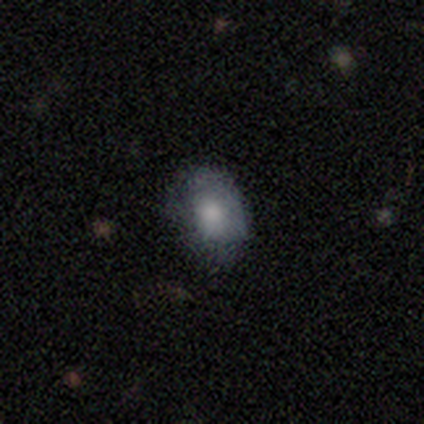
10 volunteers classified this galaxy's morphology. Smooth or featured? 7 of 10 (70%) said smooth. How rounded? 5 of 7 (71%) said in between. Merging? 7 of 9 (78%) said none.